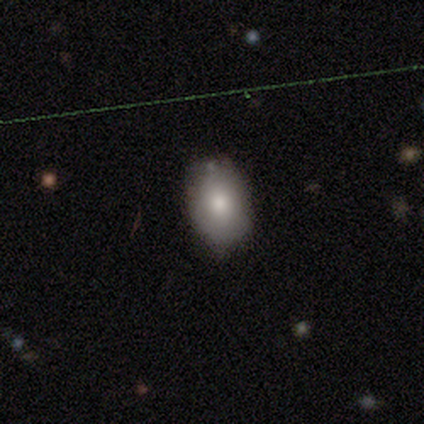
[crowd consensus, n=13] A smooth galaxy with no disk features (92%) that is in between round and cigar-shaped (83%).

Vote fractions:
- Smooth or featured? smooth: 92% / featured or disk: 8% / star or artifact: 0%
- How rounded? in between: 83% / round: 17% / cigar-shaped: 0%
- Merging? none: 85% / minor disturbance: 15% / major disturbance: 0% / merger: 0%